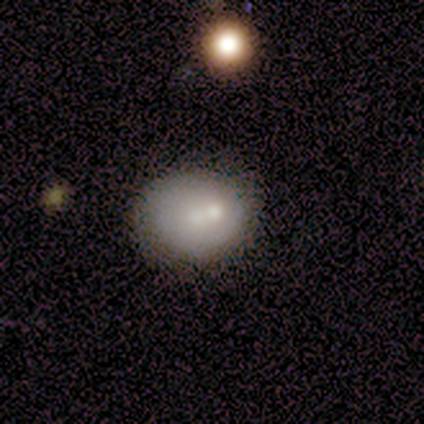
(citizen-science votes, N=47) Smooth or featured? 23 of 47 (49%) said smooth. How rounded? 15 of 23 (65%) said round. Merging? 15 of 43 (35%) said none.